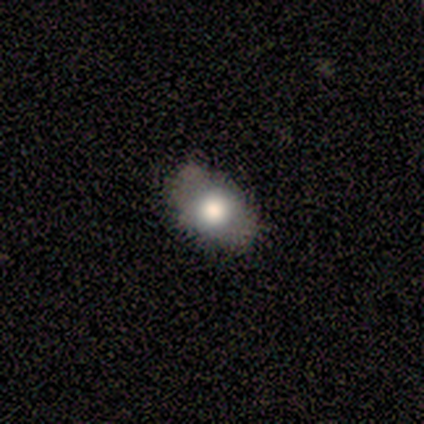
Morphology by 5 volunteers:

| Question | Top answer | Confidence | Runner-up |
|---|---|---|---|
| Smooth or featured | smooth | 100% | — |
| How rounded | in between | 100% | — |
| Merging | none | 100% | — |